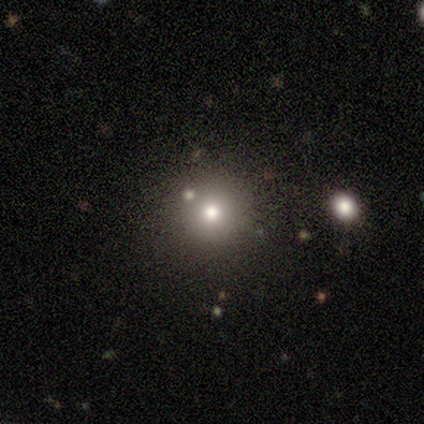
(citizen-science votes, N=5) Smooth or featured? smooth (40%, tied with star or artifact)
How rounded? round (100%)
Merging? none (100%)